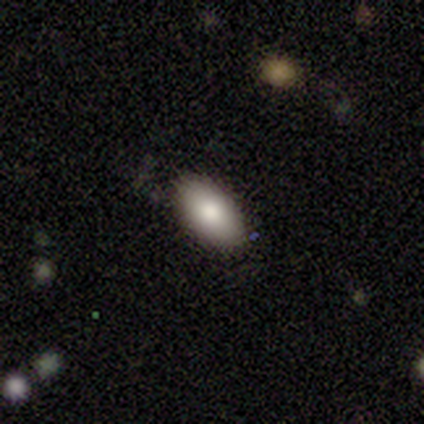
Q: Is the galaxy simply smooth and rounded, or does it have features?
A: smooth — 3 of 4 (75%).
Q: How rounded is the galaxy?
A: in between — 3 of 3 (100%).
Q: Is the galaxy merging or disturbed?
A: minor disturbance — 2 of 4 (50%).